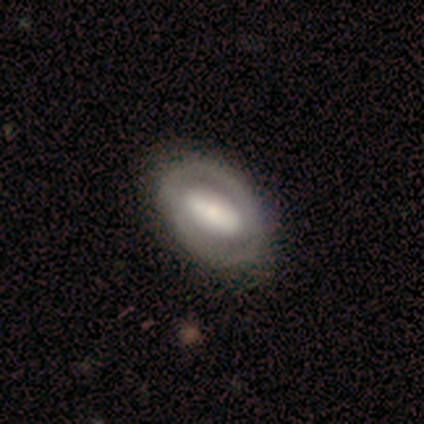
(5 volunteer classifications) This is clearly a featured or disk galaxy (80%). It is clearly not viewed edge-on (100%). Bar: likely strong (75%). Spiral arm pattern: possibly yes (50%, tied with no). Spiral arm count: clearly 2 (100%). Spiral winding: clearly tight (100%). Central bulge: possibly large (50%). Merging: clearly none (80%).